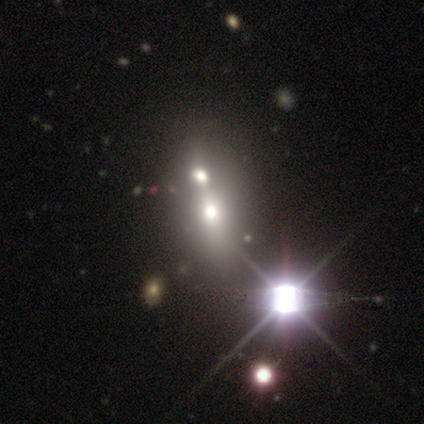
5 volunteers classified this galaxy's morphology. A star or artifact, not a galaxy (60%).